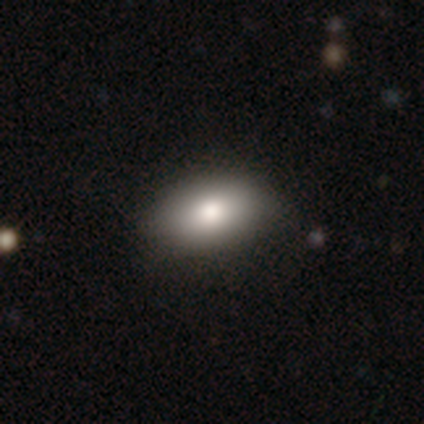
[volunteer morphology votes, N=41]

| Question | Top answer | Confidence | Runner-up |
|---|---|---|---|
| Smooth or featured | smooth | 88% | featured or disk (7%) |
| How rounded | in between | 89% | round (6%) |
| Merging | none | 54% | major disturbance (5%) |